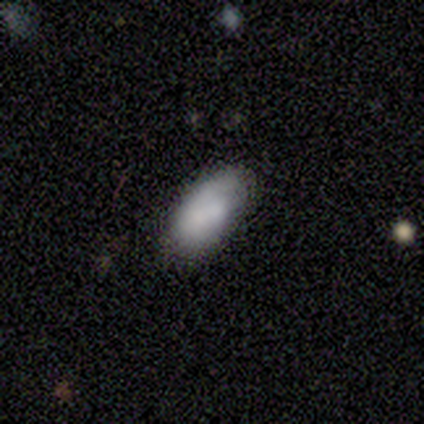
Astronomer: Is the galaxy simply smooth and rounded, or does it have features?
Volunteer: featured or disk — 60% (runner-up: smooth, 40%).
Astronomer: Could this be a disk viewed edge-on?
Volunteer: no — 100%.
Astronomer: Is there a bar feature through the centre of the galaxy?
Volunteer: no — 67%.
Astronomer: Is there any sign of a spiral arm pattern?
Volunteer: no — 67%.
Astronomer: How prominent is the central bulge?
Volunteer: moderate — 67%.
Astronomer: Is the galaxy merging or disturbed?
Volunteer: none — 80%.